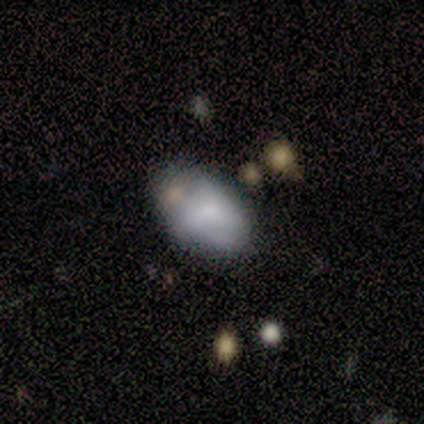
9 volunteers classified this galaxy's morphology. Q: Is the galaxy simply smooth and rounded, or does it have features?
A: smooth — 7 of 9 (78%).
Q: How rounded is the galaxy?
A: in between — 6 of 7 (86%).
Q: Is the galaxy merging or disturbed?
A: minor disturbance — 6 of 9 (67%).